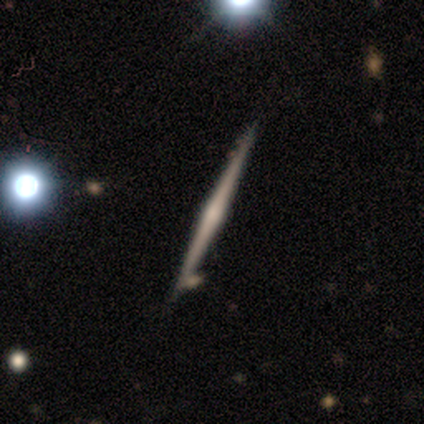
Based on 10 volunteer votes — smooth_or_featured: featured or disk (p=0.70) [alt: star or artifact p=0.20]
disk_edge_on: yes (p=1.00)
edge_on_bulge: rounded (p=0.57) [alt: none p=0.43]
merging: none (p=0.88) [alt: merger p=0.12]